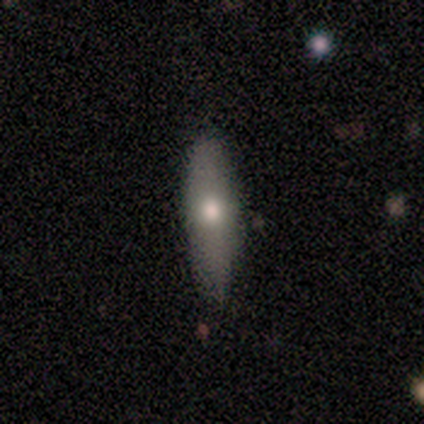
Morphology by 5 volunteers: Overall: smooth (60%; featured or disk 40%). How rounded: cigar-shaped (100%). Merging: none (60%; minor disturbance 40%).